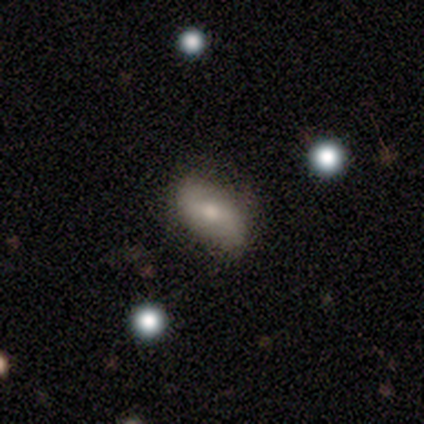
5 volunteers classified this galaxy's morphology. featured or disk 60%, smooth 40%, star or artifact 0%. Down the decision tree: edge-on disk — no (100%); bar — weak (67%); spiral arms — no (100%); bulge size — moderate (67%); merging — none (100%).